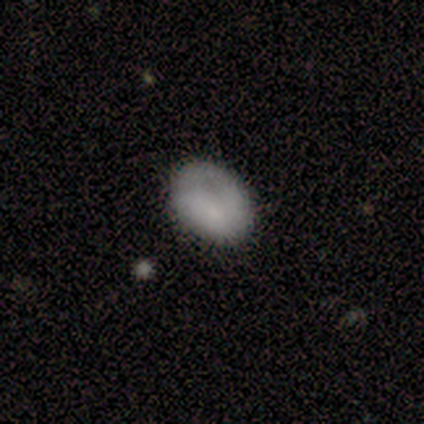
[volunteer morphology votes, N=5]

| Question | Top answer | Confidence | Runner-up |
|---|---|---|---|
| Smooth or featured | smooth | 100% | — |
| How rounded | in between | 100% | — |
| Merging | none | 100% | — |